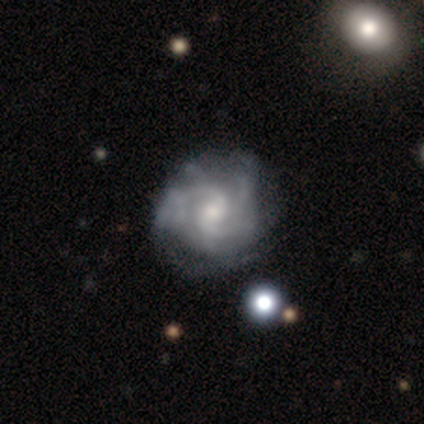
Overall: featured or disk (80%). Edge-on disk: no (100%). Bar: weak (75%). Spiral arms: yes (100%). Spiral arm count: can't tell (50%; 3 25%). Spiral winding: medium (50%; tight 25%). Bulge size: small (75%). Merging: none (100%).